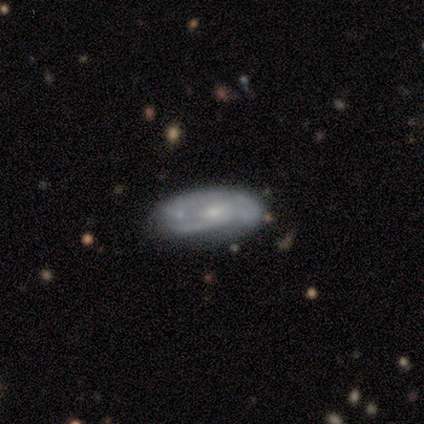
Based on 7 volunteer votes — This appears to be a featured or disk galaxy (57%) with no bar (100%), 1 (25%, tied with 2, 3 and can't tell) medium (50%) spiral arms (100%) and a moderate central bulge (75%). Merging: none (83%).